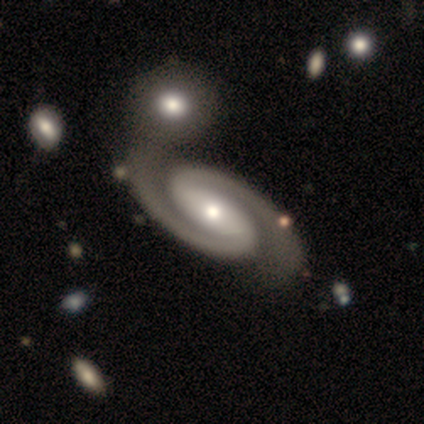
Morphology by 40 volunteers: Overall: featured or disk (90%). Edge-on disk: no (97%). Bar: strong (57%; no 26%). Spiral arms: yes (100%). Spiral arm count: 2 (100%). Spiral winding: medium (49%; tight 46%). Bulge size: moderate (60%; small 37%). Merging: none (53%; merger 26%).